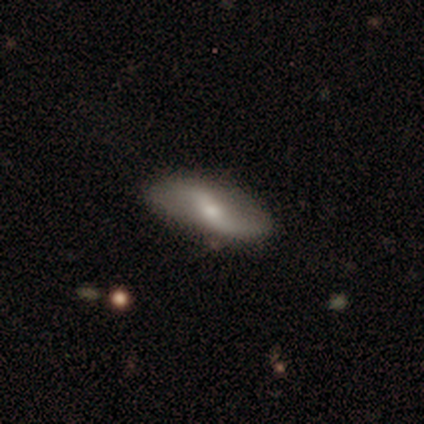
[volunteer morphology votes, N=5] Q: Smooth or featured?
A: featured or disk (80%); runner-up: star or artifact (20%)
Q: Edge-on disk?
A: no (100%)
Q: Bar?
A: weak (50%); runner-up: strong (25%)
Q: Spiral arms?
A: yes (100%)
Q: Spiral winding?
A: loose (75%); runner-up: medium (25%)
Q: Spiral arm count?
A: 2 (100%)
Q: Bulge size?
A: moderate (50%); tied with: small (50%)
Q: Merging?
A: none (100%)